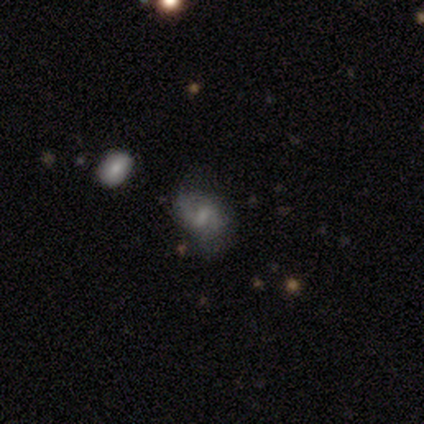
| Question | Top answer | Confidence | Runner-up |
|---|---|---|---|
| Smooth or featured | featured or disk | 80% | star or artifact (20%) |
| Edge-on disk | no | 100% | — |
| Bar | strong | 50% | tied: weak (50%) |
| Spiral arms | yes | 100% | — |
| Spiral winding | loose | 100% | — |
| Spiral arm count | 2 | 100% | — |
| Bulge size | moderate | 50% | large (25%) |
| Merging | none | 100% | — |